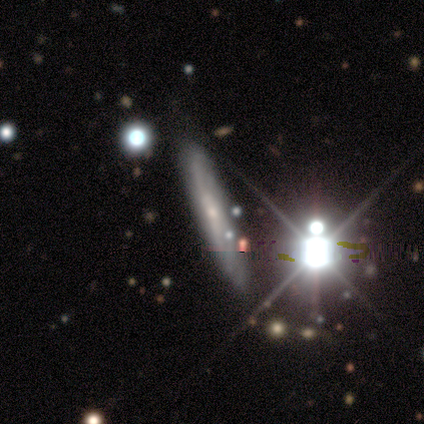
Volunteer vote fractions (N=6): Q: Smooth or featured?
A: featured or disk (50%); runner-up: smooth (33%)
Q: Edge-on disk?
A: no (67%); runner-up: yes (33%)
Q: Bar?
A: strong (50%); tied with: weak (50%)
Q: Spiral arms?
A: yes (100%)
Q: Spiral winding?
A: tight (100%)
Q: Spiral arm count?
A: 2 (50%); tied with: can't tell (50%)
Q: Bulge size?
A: moderate (50%); tied with: small (50%)
Q: Merging?
A: none (80%); runner-up: minor disturbance (20%)